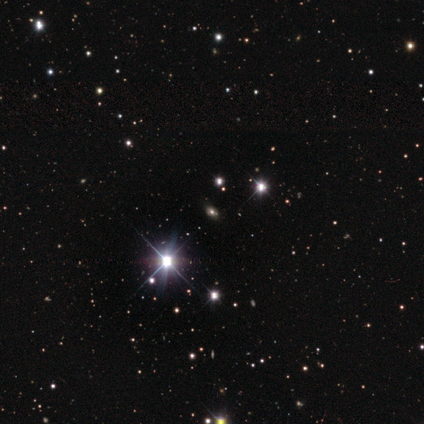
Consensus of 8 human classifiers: Smooth or featured: star or artifact — 75% (smooth — 12%)